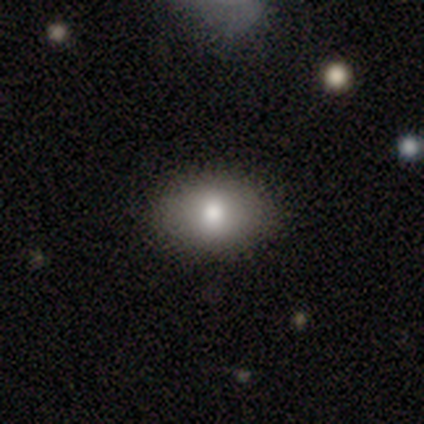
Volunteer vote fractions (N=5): smooth_or_featured: smooth (p=0.80) [alt: star or artifact p=0.20]
how_rounded: in between (p=1.00)
merging: none (p=1.00)